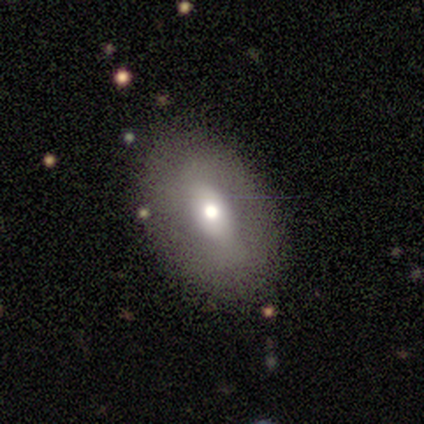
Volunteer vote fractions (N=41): Q: Smooth or featured?
A: smooth (44%); runner-up: featured or disk (39%)
Q: How rounded?
A: in between (94%); runner-up: cigar-shaped (6%)
Q: Merging?
A: none (76%); runner-up: minor disturbance (15%)